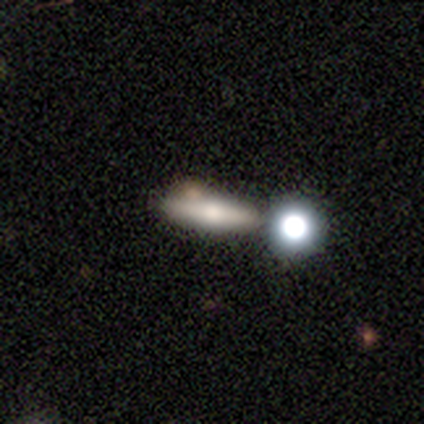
smooth 60%, featured or disk 33%, star or artifact 6%. Down the decision tree: how rounded — cigar-shaped (51%); merging — none (49%).